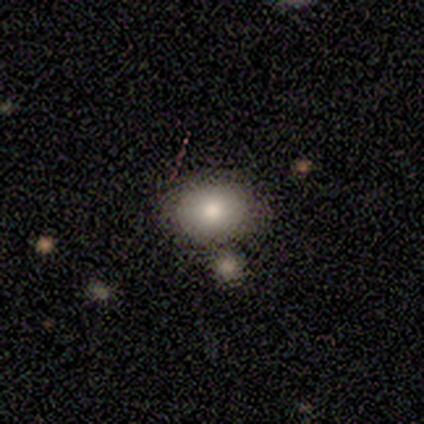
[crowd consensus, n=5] This is likely a smooth galaxy (60%). How rounded: likely round (67%). Merging: clearly none (80%).